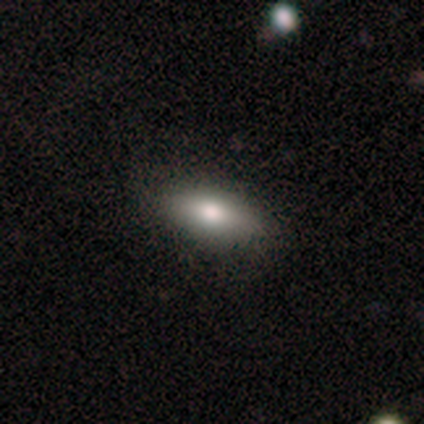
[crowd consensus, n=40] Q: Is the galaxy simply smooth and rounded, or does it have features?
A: smooth — 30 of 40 (75%).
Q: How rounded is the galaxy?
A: in between — 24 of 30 (80%).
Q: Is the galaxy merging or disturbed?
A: none — 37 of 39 (95%).